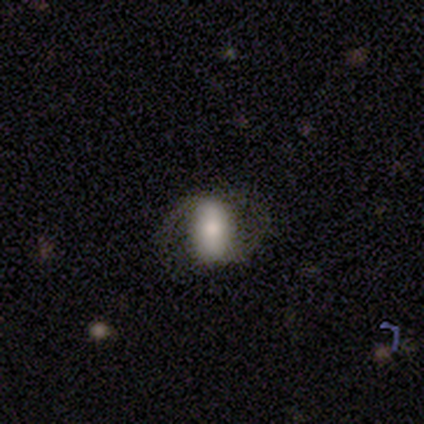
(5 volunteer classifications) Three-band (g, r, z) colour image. It shows a smooth galaxy with no disk features (40%, tied with star or artifact) that is round (50%, tied with in between). Merging: none (100%).